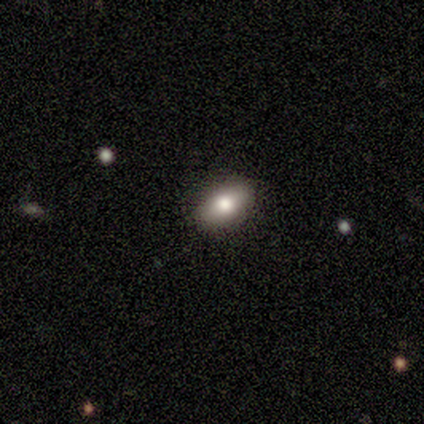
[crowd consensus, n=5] Smooth or featured: smooth — 80% (featured or disk — 20%)
How rounded: in between — 100%
Merging: none — 100%